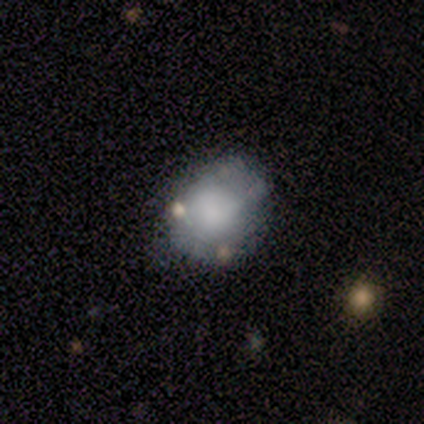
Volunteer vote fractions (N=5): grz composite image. It shows a star or artifact, not a galaxy (60%).